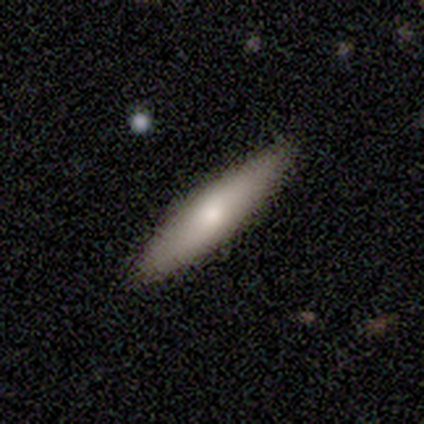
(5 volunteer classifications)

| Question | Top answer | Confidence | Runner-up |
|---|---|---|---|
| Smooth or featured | smooth | 80% | star or artifact (20%) |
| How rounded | in between | 50% | tied: cigar-shaped (50%) |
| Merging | none | 100% | — |